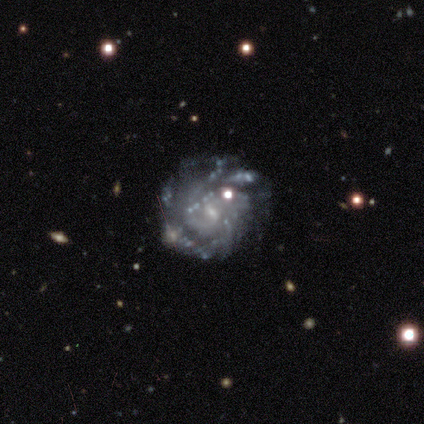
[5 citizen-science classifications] Smooth or featured? 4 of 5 (80%) said featured or disk. Edge-on disk? 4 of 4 (100%) said no. Bar? 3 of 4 (75%) said weak. Spiral arms? 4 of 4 (100%) said yes. Spiral winding? 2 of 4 (50%) said tight. Spiral arm count? 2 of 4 (50%) said can't tell. Bulge size? 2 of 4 (50%) said moderate. Merging? 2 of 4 (50%) said minor disturbance.